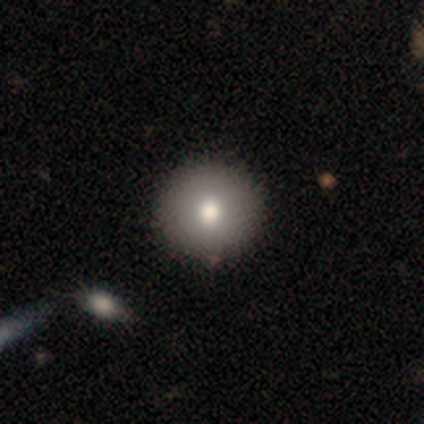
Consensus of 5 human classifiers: Overall: smooth (100%). How rounded: round (100%). Merging: none (100%).